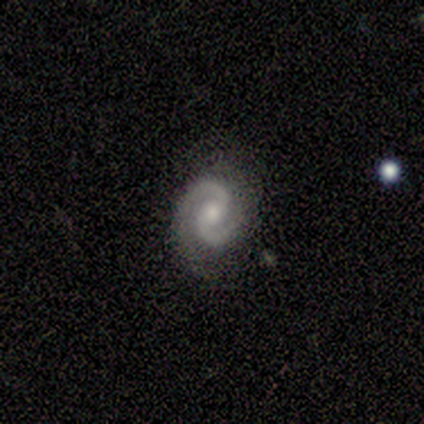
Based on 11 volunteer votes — This is clearly a featured or disk galaxy (91%). It is clearly not viewed edge-on (100%). Bar: likely no (70%). Spiral arm pattern: clearly yes (100%). Spiral arm count: clearly 2 (100%). Spiral winding: marginally tight (40%, tied with medium). Central bulge: likely moderate (60%). Merging: clearly none (80%).